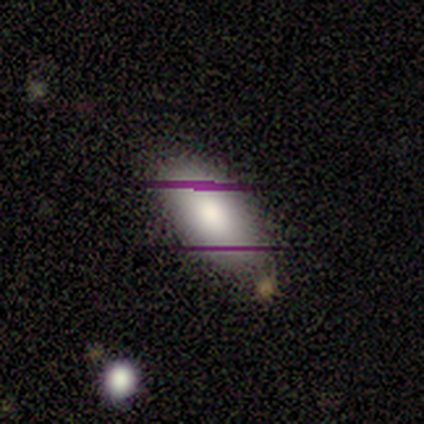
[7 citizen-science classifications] This appears to be a smooth galaxy with no disk features (86%) that is in between round and cigar-shaped (100%). Merging: none (86%).